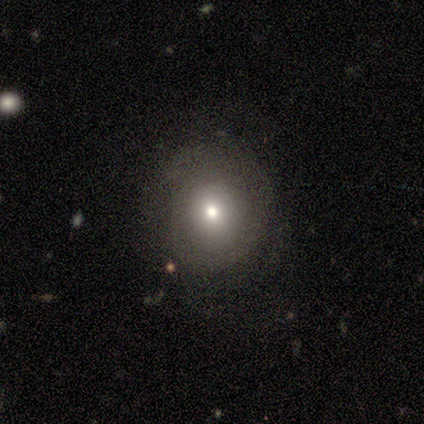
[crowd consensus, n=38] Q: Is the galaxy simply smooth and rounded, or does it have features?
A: smooth — 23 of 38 (61%).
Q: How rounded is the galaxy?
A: round — 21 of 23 (91%).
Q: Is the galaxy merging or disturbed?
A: none — 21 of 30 (70%).